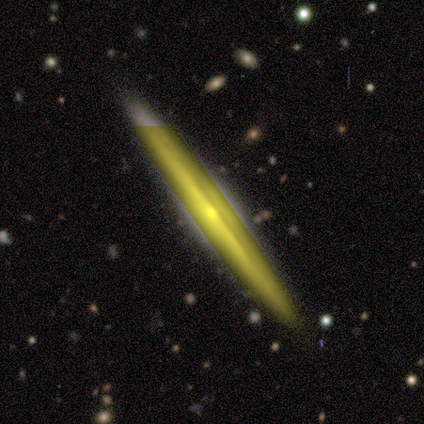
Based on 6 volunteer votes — A featured or disk galaxy (100%) viewed edge-on (100%) with a rounded central bulge (67%).

Vote fractions:
- Smooth or featured? featured or disk: 100% / smooth: 0% / star or artifact: 0%
- Edge-on disk? yes: 100% / no: 0%
- Edge-on bulge? rounded: 67% / boxy: 17% / none: 17%
- Merging? none: 100% / minor disturbance: 0% / major disturbance: 0% / merger: 0%